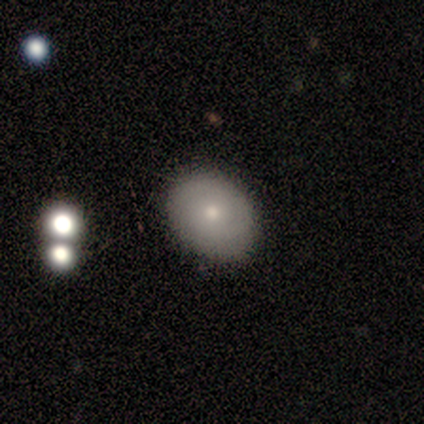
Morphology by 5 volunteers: type=smooth (80%); roundness=in between (100%); merging=none (80%).